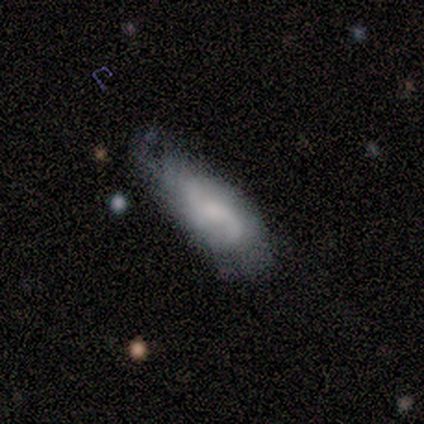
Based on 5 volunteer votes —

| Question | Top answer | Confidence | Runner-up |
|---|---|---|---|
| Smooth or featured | featured or disk | 60% | smooth (20%) |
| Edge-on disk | yes | 67% | no (33%) |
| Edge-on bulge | boxy | 50% | tied: rounded (50%) |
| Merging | minor disturbance | 75% | major disturbance (25%) |